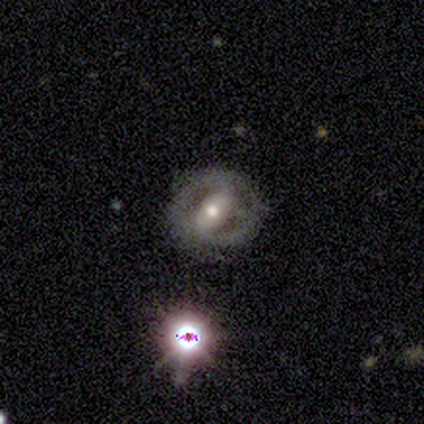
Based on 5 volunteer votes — Smooth or featured? 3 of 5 (60%) said featured or disk. Edge-on disk? 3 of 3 (100%) said no. Bar? 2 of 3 (67%) said strong. Spiral arms? 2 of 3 (67%) said yes. Spiral winding? 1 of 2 (50%, tied with medium) said tight. Spiral arm count? 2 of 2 (100%) said 2. Bulge size? 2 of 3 (67%) said large. Merging? 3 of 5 (60%) said none.